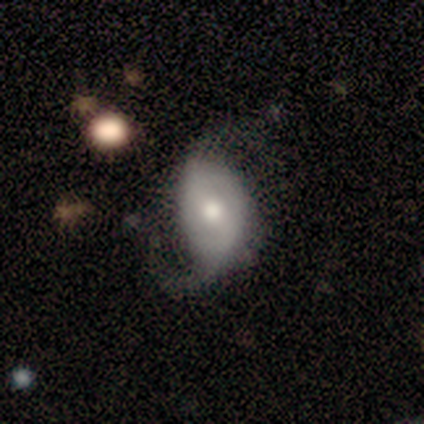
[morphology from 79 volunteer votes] type=featured or disk (67%); edge-on=no (100%); bar=no (55%); spiral arms=yes (81%); winding=loose (74%); arm count=2 (74%); bulge=moderate (75%); merging=major disturbance (23%).